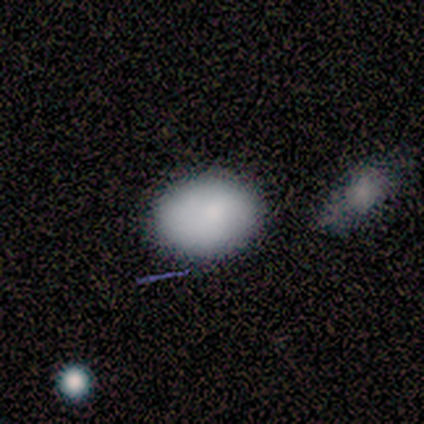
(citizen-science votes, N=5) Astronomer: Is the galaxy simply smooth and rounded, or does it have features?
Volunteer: smooth — 80%.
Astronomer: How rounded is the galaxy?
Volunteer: round — 75%.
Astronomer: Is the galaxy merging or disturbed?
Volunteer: none — 100%.